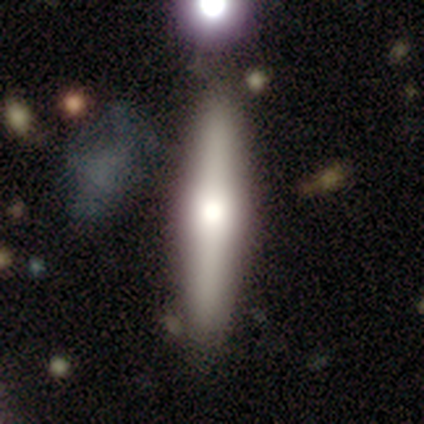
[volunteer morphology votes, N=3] type=smooth (67%); roundness=cigar-shaped (100%); merging=none (100%).